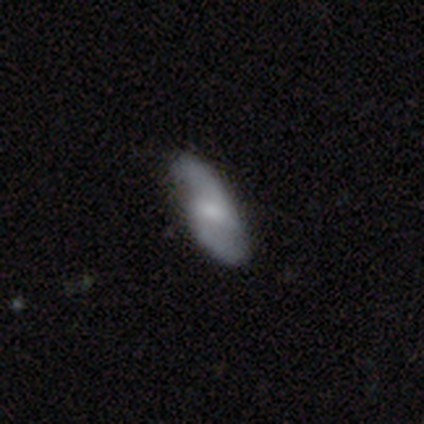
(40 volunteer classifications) Morphology: type=featured or disk (60%); edge-on=no (92%); bar=weak (59%); spiral arms=yes (95%); winding=medium (48%); arm count=2 (100%); bulge=small (59%); merging=none (79%).